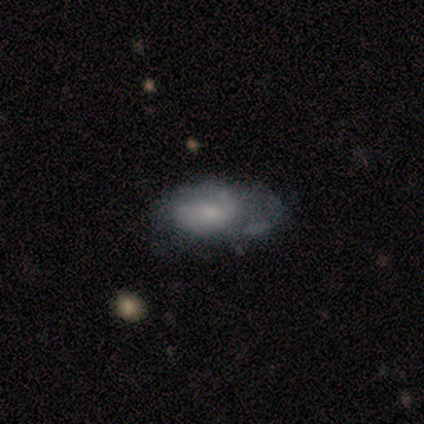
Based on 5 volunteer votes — This is marginally a smooth galaxy (40%, tied with featured or disk). How rounded: clearly in between (100%). Merging: possibly minor disturbance (50%).